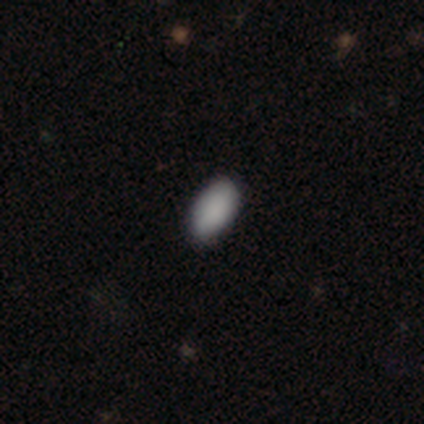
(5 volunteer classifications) Smooth or featured? smooth (80%)
How rounded? in between (100%)
Merging? none (75%)